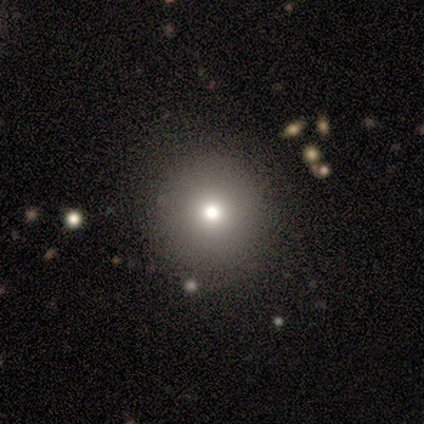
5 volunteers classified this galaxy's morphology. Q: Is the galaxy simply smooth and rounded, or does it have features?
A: smooth — 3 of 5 (60%).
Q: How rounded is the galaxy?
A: round — 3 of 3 (100%).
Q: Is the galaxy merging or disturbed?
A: none — 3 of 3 (100%).